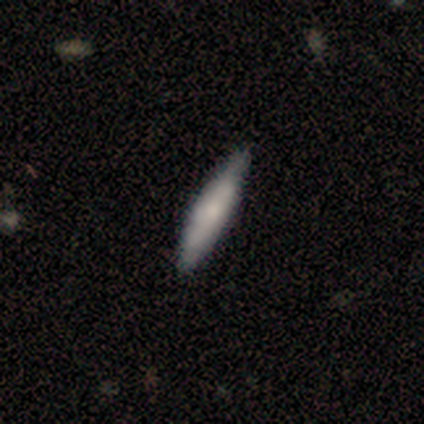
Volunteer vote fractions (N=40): Smooth or featured?
  - smooth: 60% *
  - featured or disk: 32%
  - star or artifact: 8%
How rounded?
  - cigar-shaped: 100% *
  - round: 0%
  - in between: 0%
Merging?
  - none: 59% *
  - minor disturbance: 19%
  - major disturbance: 0%
  - merger: 0%